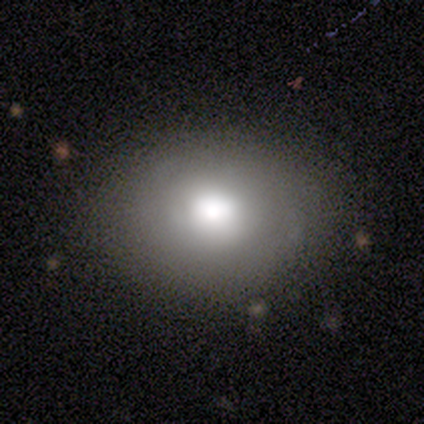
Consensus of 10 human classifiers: Overall: smooth (90%). How rounded: in between (56%; round 44%). Merging: none (78%).